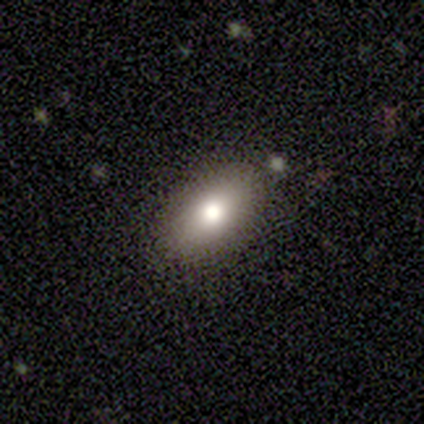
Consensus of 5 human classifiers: A smooth galaxy with no disk features (100%) that is in between round and cigar-shaped (100%). Merging: none (100%).